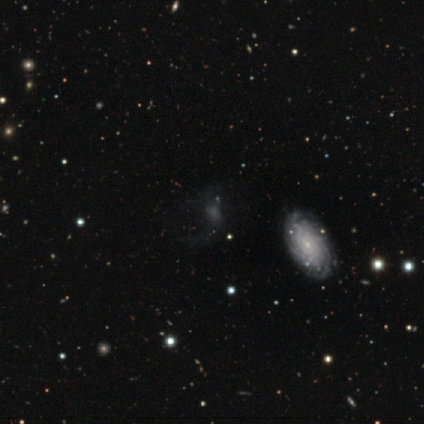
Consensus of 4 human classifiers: A star or artifact, not a galaxy (50%).